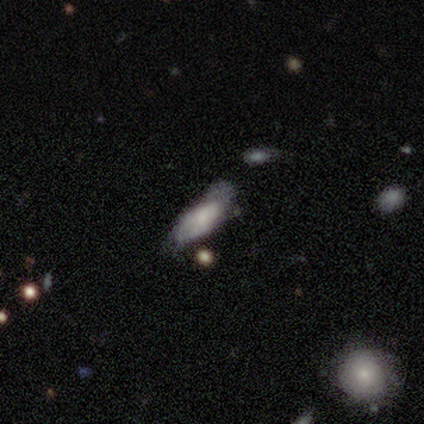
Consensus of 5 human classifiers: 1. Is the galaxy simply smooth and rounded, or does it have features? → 80% smooth, 20% featured or disk, 0% star or artifact.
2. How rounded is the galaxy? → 100% in between, 0% round, 0% cigar-shaped.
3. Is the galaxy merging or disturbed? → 40% minor disturbance (tied), 40% major disturbance (tied), 20% none, 0% merger.